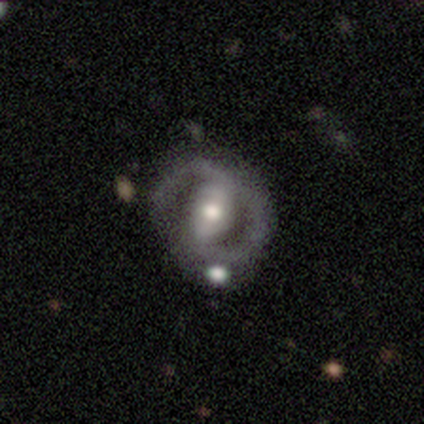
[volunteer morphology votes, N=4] featured or disk 75%, smooth 25%, star or artifact 0%. Down the decision tree: edge-on disk — no (100%); bar — strong (33%, tied with weak and no); spiral arms — yes (100%); spiral arm count — 2 (67%); spiral winding — medium (67%); bulge size — moderate (100%); merging — none (75%).